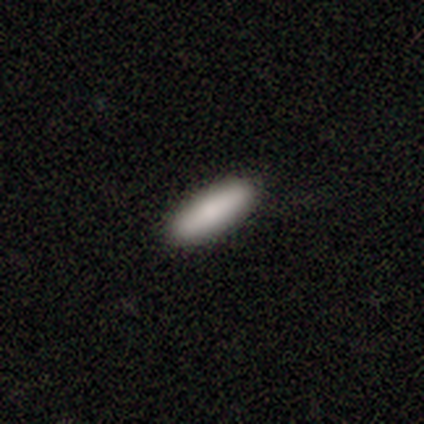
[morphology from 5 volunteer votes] Smooth or featured? 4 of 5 (80%) said smooth. How rounded? 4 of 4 (100%) said cigar-shaped. Merging? 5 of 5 (100%) said none.